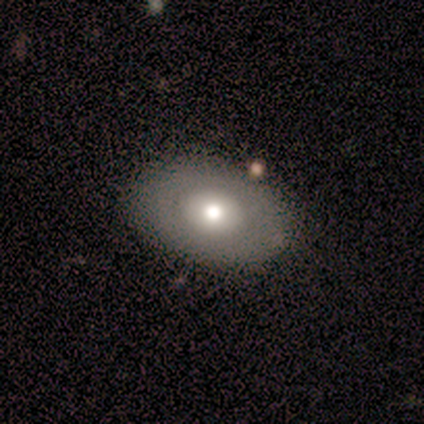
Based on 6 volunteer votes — smooth 83%, featured or disk 17%, star or artifact 0%. Down the decision tree: how rounded — in between (80%); merging — none (67%).